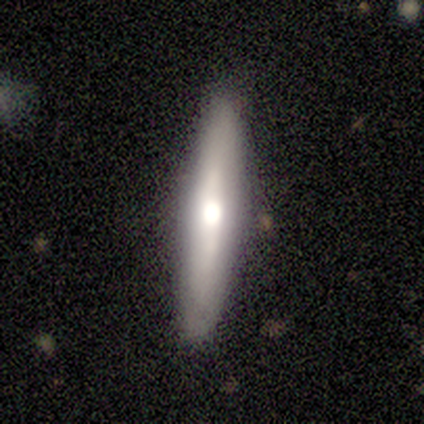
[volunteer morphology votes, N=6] Volunteers were most divided on "edge-on disk": yes: 80%, no: 20%. More confident: edge-on bulge — rounded (100%); smooth or featured — featured or disk (83%); merging — none (83%).